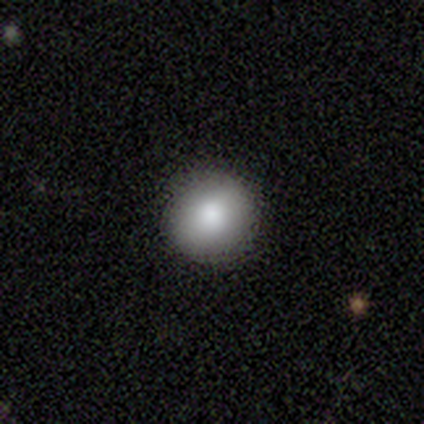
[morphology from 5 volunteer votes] Volunteers were most divided on "how rounded": round: 80%, in between: 20%, cigar-shaped: 0%. More confident: smooth or featured — smooth (100%); merging — none (100%).